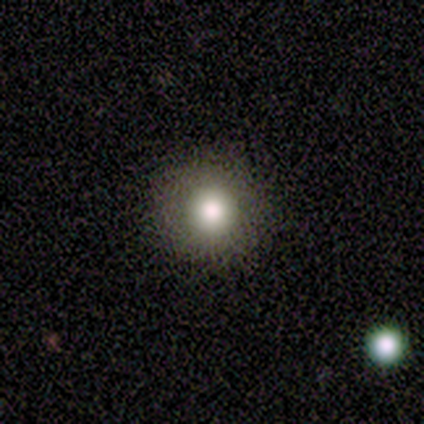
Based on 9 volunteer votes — Volunteers were most divided on "smooth or featured": smooth: 67%, star or artifact: 33%, featured or disk: 0%. More confident: how rounded — round (100%); merging — none (100%).